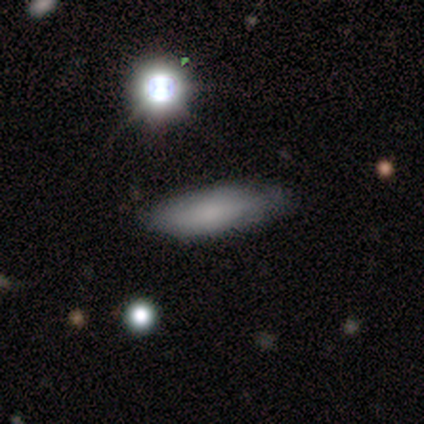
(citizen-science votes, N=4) Q: Smooth or featured?
A: smooth (75%); runner-up: star or artifact (25%)
Q: How rounded?
A: cigar-shaped (100%)
Q: Merging?
A: none (67%); runner-up: minor disturbance (33%)